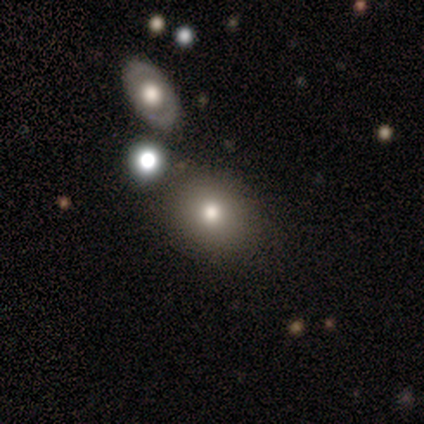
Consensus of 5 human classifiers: Smooth or featured?
  - smooth: 60% *
  - star or artifact: 40%
  - featured or disk: 0%
How rounded?
  - round: 100% *
  - in between: 0%
  - cigar-shaped: 0%
Merging?
  - none: 67% *
  - merger: 33%
  - minor disturbance: 0%
  - major disturbance: 0%